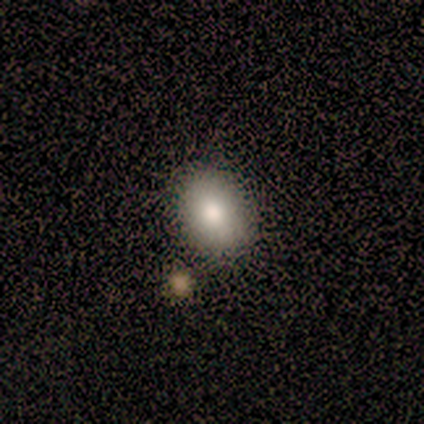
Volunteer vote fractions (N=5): This appears to be a smooth galaxy with no disk features (100%) that is in between round and cigar-shaped (60%). Merging: none (100%).